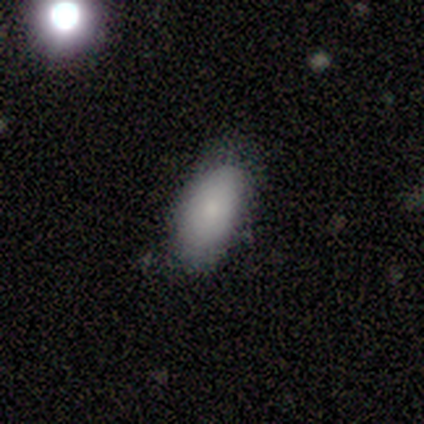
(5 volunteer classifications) smooth-or-featured: smooth: 60% | featured or disk: 40% | star or artifact: 0%
  how-rounded: in between: 100% | round: 0% | cigar-shaped: 0%
  merging: none: 80% | minor disturbance: 20% | major disturbance: 0% | merger: 0%